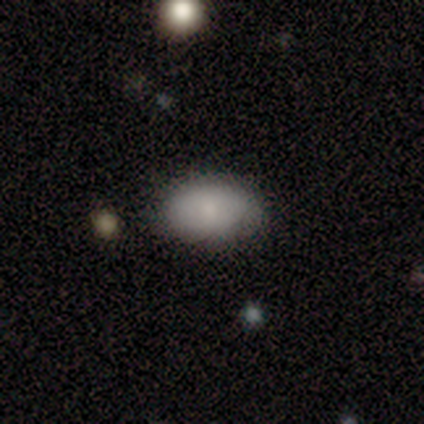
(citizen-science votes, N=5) Overall: smooth (80%). How rounded: in between (100%). Merging: none (100%).